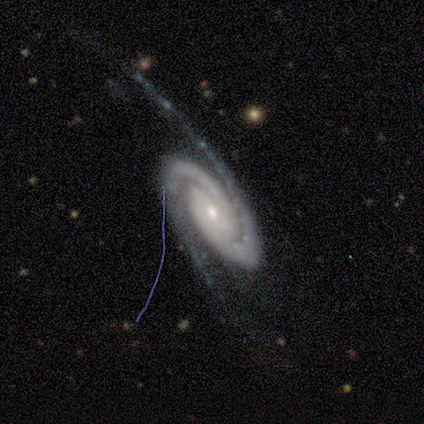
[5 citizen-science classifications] Overall: featured or disk (100%). Edge-on disk: no (100%). Bar: no (60%; strong 20%). Spiral arms: yes (100%). Spiral arm count: 2 (100%). Spiral winding: tight (80%). Bulge size: small (80%). Merging: none (60%; minor disturbance 20%).